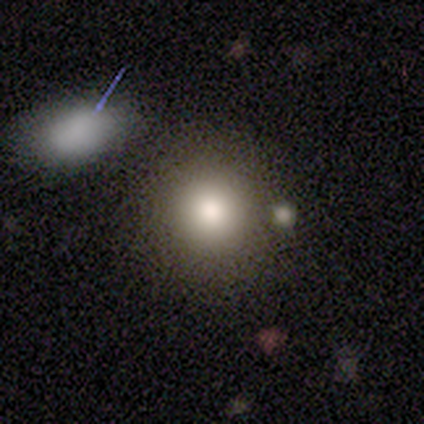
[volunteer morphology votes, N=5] Overall: smooth (80%). How rounded: round (100%). Merging: none (60%; minor disturbance 20%).